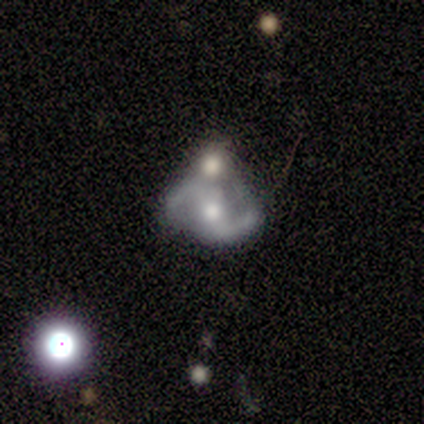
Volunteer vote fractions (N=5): featured or disk 100%, smooth 0%, star or artifact 0%. Down the decision tree: edge-on disk — no (100%); bar — strong (40%, tied with weak); spiral arms — yes (100%); spiral arm count — 2 (100%); spiral winding — loose (60%); bulge size — moderate (80%); merging — none (40%, tied with merger).